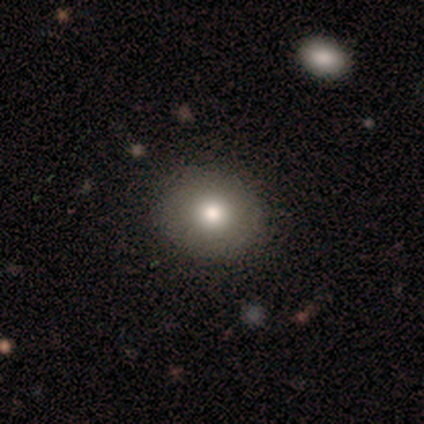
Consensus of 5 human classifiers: A smooth galaxy with no disk features (80%) that is round (50%, tied with in between). Merging: none (100%).